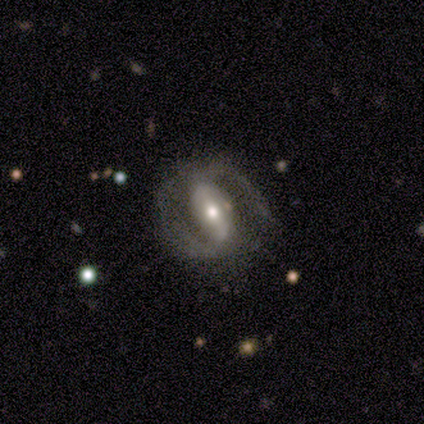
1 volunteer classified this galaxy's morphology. This appears to be a featured or disk galaxy (100%) with a strong bar (100%), no spiral arms (100%) and a moderate central bulge (100%). Merging: none (100%).